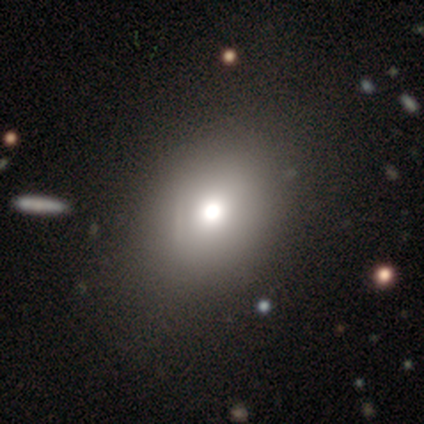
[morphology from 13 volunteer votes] Smooth or featured?
  - smooth: 77% *
  - star or artifact: 15%
  - featured or disk: 8%
How rounded?
  - in between: 60% *
  - round: 40%
  - cigar-shaped: 0%
Merging?
  - none: 100% *
  - minor disturbance: 0%
  - major disturbance: 0%
  - merger: 0%